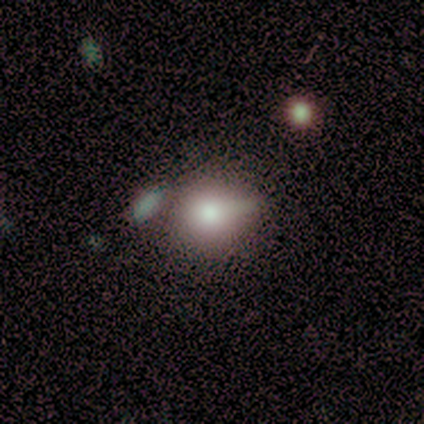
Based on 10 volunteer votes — Smooth or featured? 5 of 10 (50%) said smooth. How rounded? 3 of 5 (60%) said round. Merging? 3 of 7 (43%) said merger.